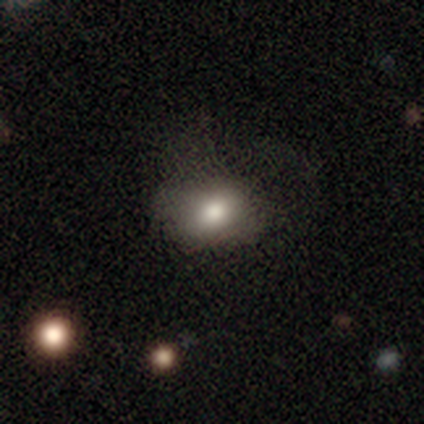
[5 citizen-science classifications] Smooth or featured? 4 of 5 (80%) said smooth. How rounded? 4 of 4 (100%) said in between. Merging? 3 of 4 (75%) said none.